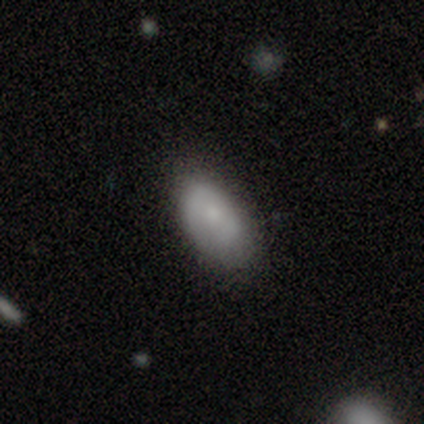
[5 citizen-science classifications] This appears to be a smooth galaxy with no disk features (80%) that is in between round and cigar-shaped (100%). Merging: none (60%).